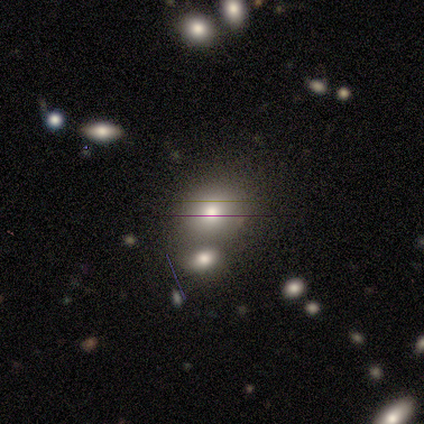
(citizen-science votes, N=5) Smooth or featured: smooth — 40% (tied with featured or disk — 40%)
How rounded: round — 50% (tied with in between — 50%)
Merging: none — 75% (merger — 25%)